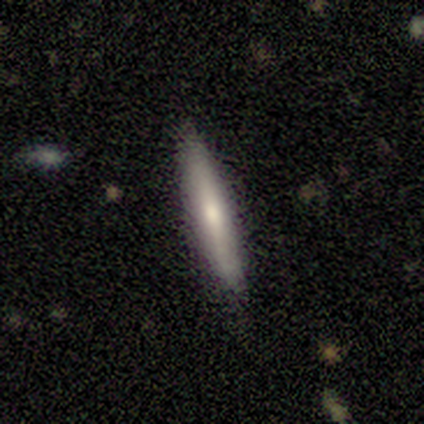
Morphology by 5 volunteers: This appears to be a featured or disk galaxy (60%) viewed edge-on (67%) with a rounded central bulge (100%). Merging: none (80%).